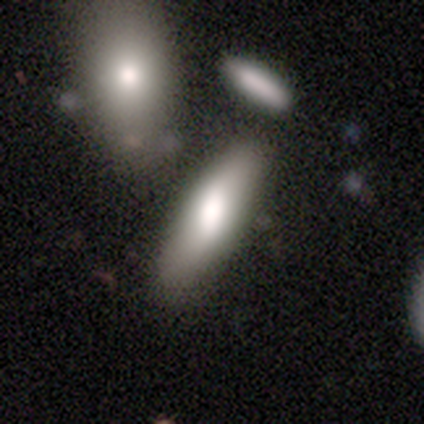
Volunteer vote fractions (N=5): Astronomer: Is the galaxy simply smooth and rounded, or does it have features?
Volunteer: smooth — 80%.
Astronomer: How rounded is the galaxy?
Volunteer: in between — 75%.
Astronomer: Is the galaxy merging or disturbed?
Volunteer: none — 60% (runner-up: minor disturbance, 40%).